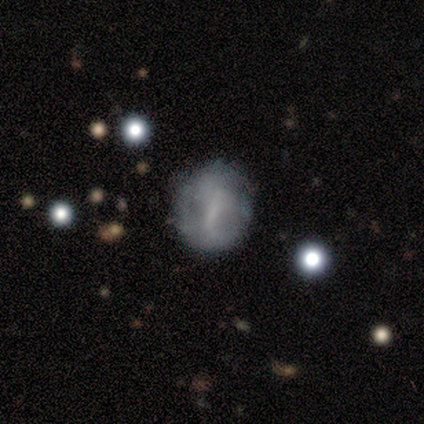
smooth 100%, featured or disk 0%, star or artifact 0%. Down the decision tree: how rounded — round (50%, tied with in between); merging — none (50%, tied with major disturbance).